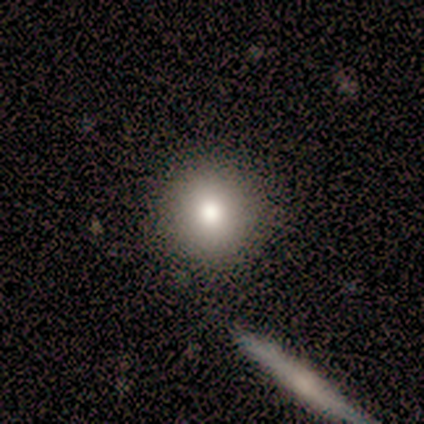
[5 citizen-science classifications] This is clearly a smooth galaxy (80%). How rounded: clearly round (100%). Merging: clearly none (100%).